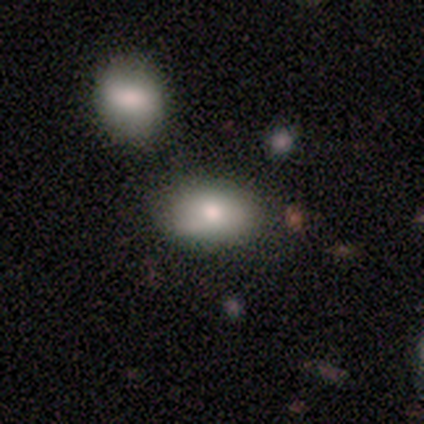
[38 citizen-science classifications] smooth_or_featured: smooth (p=0.82) [alt: featured or disk p=0.11]
how_rounded: in between (p=0.90) [alt: round p=0.06]
merging: none (p=0.71) [alt: minor disturbance p=0.17]